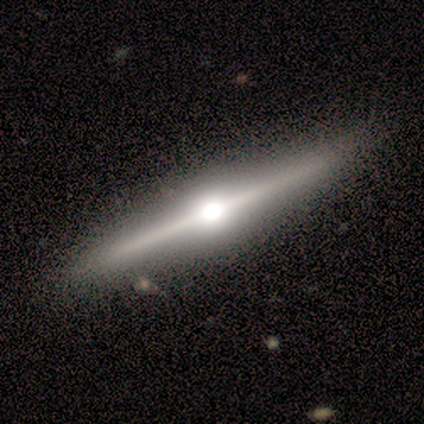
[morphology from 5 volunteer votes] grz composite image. It shows a featured or disk galaxy (80%) viewed edge-on (100%) with a rounded central bulge (100%). Merging: none (80%).